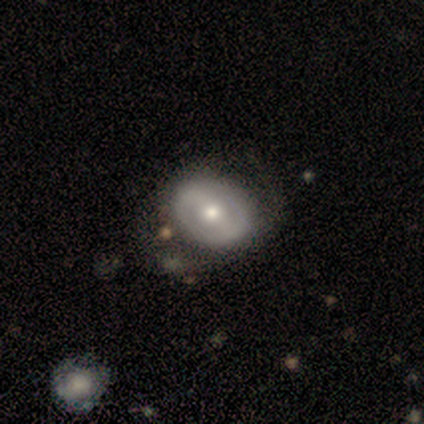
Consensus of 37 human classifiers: Overall: featured or disk (70%). Edge-on disk: no (92%). Bar: strong (38%; weak 33%). Spiral arms: no (54%; yes 46%). Bulge size: moderate (75%). Merging: none (46%; minor disturbance 16%).